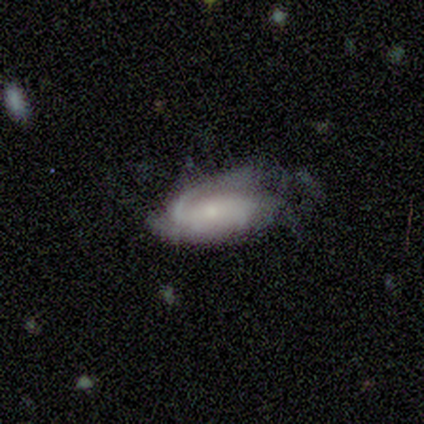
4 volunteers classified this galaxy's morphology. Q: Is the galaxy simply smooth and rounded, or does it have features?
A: featured or disk — 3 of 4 (75%).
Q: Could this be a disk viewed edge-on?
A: no — 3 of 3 (100%).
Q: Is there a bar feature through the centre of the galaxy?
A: no — 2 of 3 (67%).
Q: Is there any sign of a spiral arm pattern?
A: yes — 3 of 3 (100%).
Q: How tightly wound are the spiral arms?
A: medium — 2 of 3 (67%).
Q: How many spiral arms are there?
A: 1 — 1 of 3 (33%, tied with 2 and can't tell).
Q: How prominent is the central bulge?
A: small — 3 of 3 (100%).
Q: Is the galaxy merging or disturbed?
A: none — 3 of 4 (75%).